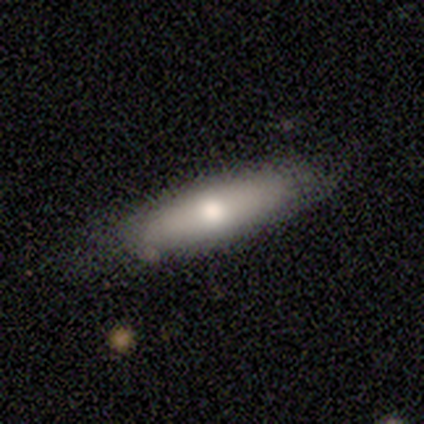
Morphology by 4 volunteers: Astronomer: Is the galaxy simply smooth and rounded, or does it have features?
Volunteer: smooth — 75%.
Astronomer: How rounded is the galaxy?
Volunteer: in between — 67%.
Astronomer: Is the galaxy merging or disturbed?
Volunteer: none — 50%.